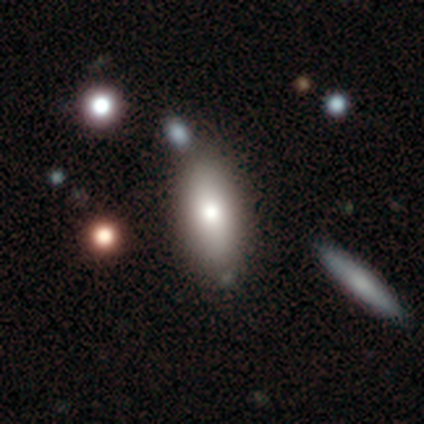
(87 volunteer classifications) smooth 77%, featured or disk 17%, star or artifact 6%. Down the decision tree: how rounded — in between (79%); merging — none (79%).